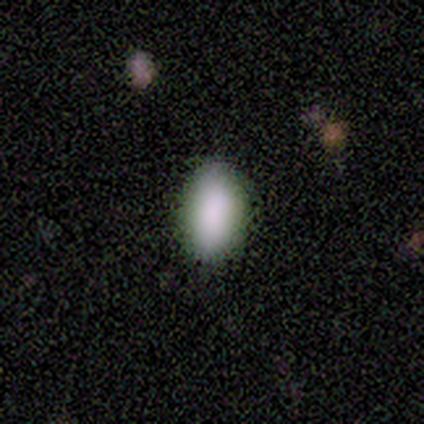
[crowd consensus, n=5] This is clearly a smooth galaxy (100%). How rounded: clearly in between (80%). Merging: clearly none (100%).